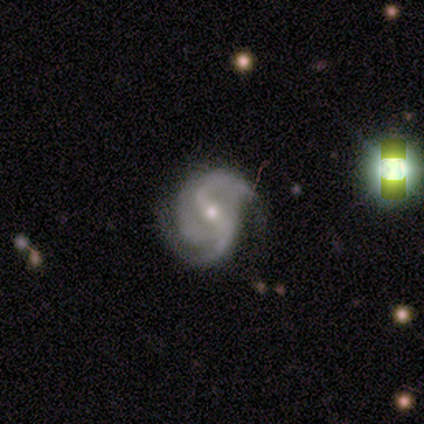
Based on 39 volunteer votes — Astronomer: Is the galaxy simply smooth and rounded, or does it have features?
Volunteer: featured or disk — 85%.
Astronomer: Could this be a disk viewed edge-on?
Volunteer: no — 100%.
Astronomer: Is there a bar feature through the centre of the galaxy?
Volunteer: strong — 39% (runner-up: weak, 33%).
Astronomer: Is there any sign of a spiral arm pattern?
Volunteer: yes — 100%.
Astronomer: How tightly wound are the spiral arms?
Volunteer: medium — 45% (runner-up: loose, 30%).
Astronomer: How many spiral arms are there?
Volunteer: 2 — 48% (runner-up: 3, 39%).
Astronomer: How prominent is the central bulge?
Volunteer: small — 55% (runner-up: moderate, 42%).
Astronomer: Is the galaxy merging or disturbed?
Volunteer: none — 57%.